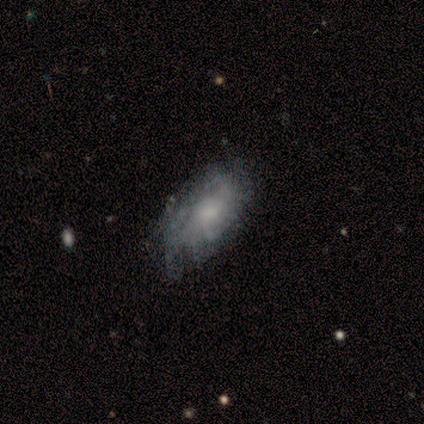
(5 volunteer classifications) smooth 40% (tied), featured or disk 40% (tied), star or artifact 20%. Down the decision tree: how rounded — in between (100%); merging — none (50%, tied with minor disturbance).